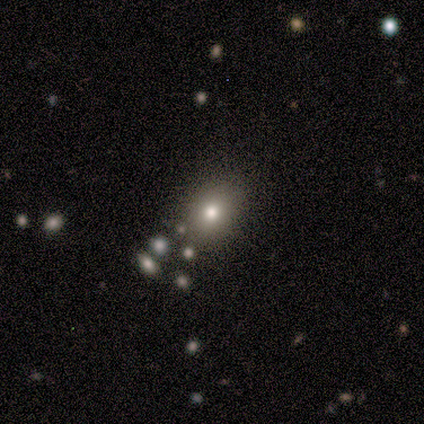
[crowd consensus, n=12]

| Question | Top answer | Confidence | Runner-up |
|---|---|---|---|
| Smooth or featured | smooth | 75% | featured or disk (25%) |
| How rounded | round | 67% | in between (33%) |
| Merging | none | 83% | merger (17%) |